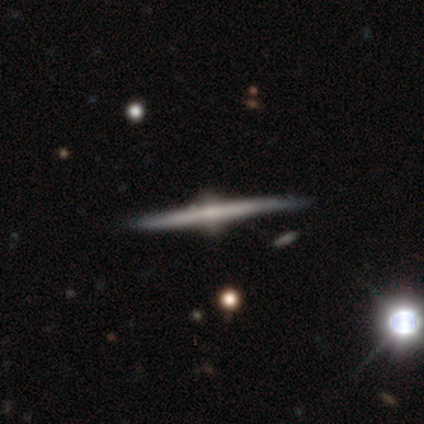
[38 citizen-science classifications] Q: Smooth or featured?
A: featured or disk (89%); runner-up: smooth (8%)
Q: Edge-on disk?
A: yes (100%)
Q: Edge-on bulge?
A: rounded (97%); runner-up: none (3%)
Q: Merging?
A: none (92%); runner-up: minor disturbance (8%)